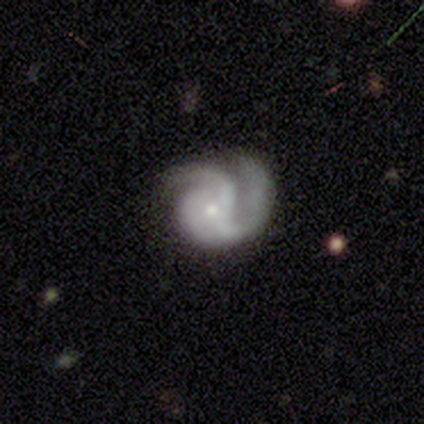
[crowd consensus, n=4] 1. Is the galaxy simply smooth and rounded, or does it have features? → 100% featured or disk, 0% smooth, 0% star or artifact.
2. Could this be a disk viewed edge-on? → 100% no, 0% yes.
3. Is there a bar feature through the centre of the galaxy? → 75% no, 25% weak, 0% strong.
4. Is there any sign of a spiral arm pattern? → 100% yes, 0% no.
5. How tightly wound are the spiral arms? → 50% tight (tied), 50% medium (tied), 0% loose.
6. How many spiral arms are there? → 100% 2, 0% 1, 0% 3, 0% 4, 0% more than 4, 0% can't tell.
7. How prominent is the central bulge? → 75% small, 25% moderate, 0% dominant, 0% large, 0% none.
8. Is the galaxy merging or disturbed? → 75% none, 25% major disturbance, 0% minor disturbance, 0% merger.